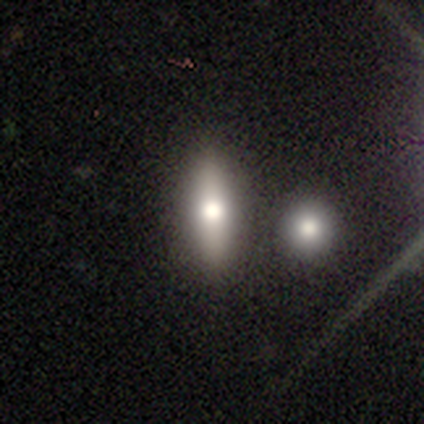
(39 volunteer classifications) smooth-or-featured: smooth: 69% | featured or disk: 23% | star or artifact: 8%
  how-rounded: cigar-shaped: 63% | in between: 37% | round: 0%
  merging: none: 81% | minor disturbance: 8% | merger: 8% | major disturbance: 3%